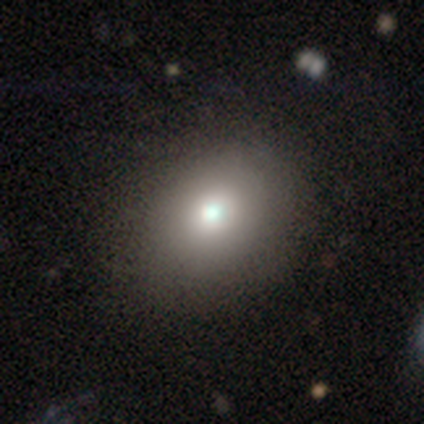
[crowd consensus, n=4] Smooth or featured?
  - smooth: 75% *
  - star or artifact: 25%
  - featured or disk: 0%
How rounded?
  - round: 67% *
  - in between: 33%
  - cigar-shaped: 0%
Merging?
  - none: 100% *
  - minor disturbance: 0%
  - major disturbance: 0%
  - merger: 0%